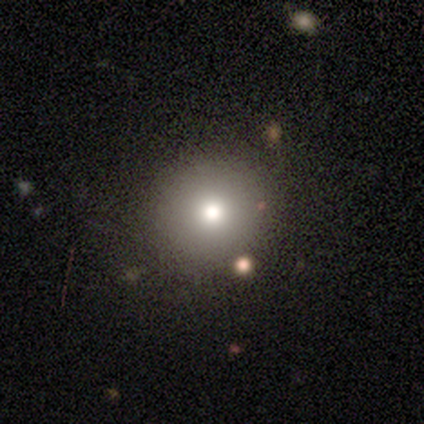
Smooth or featured?
  - smooth: 63% *
  - star or artifact: 21%
  - featured or disk: 16%
How rounded?
  - round: 96% *
  - in between: 4%
  - cigar-shaped: 0%
Merging?
  - none: 93% *
  - minor disturbance: 7%
  - major disturbance: 0%
  - merger: 0%